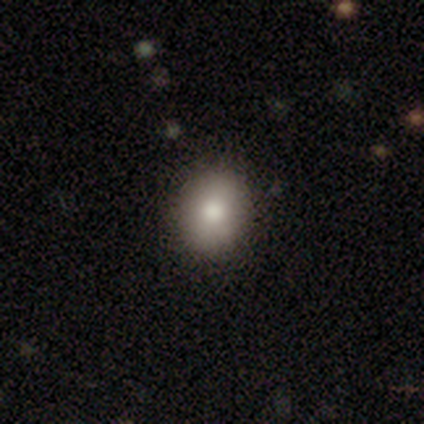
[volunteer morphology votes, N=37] smooth 65%, featured or disk 22%, star or artifact 14%. Down the decision tree: how rounded — round (75%); merging — none (91%).